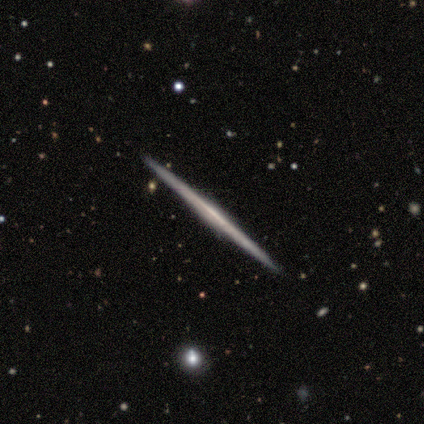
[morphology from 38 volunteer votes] Volunteers were most divided on "edge-on bulge": none: 70%, rounded: 17%, boxy: 13%. More confident: edge-on disk — yes (100%); merging — none (95%); smooth or featured — featured or disk (79%).